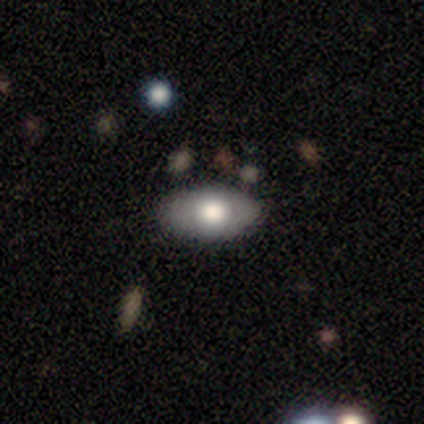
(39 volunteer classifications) Smooth or featured: smooth — 67% (featured or disk — 28%)
How rounded: in between — 92% (round — 8%)
Merging: none — 86% (major disturbance — 8%)